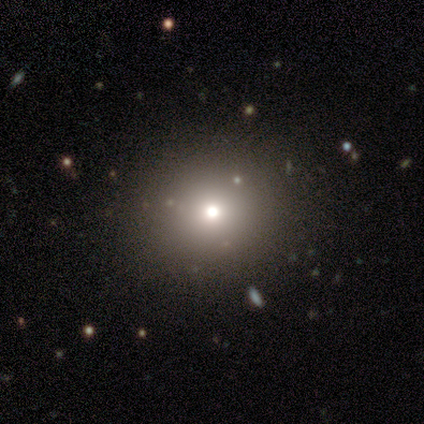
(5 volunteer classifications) smooth-or-featured: smooth: 80% | featured or disk: 20% | star or artifact: 0%
  how-rounded: round: 75% | in between: 25% | cigar-shaped: 0%
  merging: none: 100% | minor disturbance: 0% | major disturbance: 0% | merger: 0%